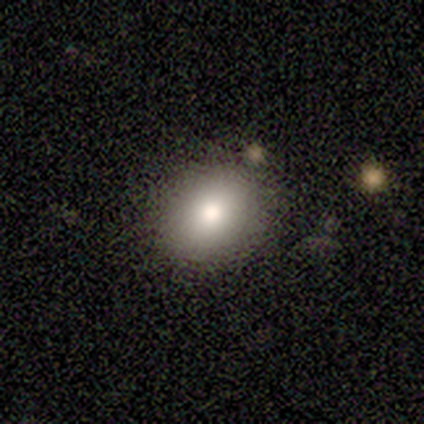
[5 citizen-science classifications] Morphology: type=smooth (80%); roundness=round (75%); merging=none (100%).